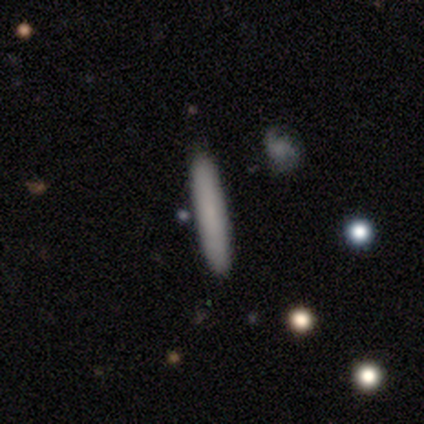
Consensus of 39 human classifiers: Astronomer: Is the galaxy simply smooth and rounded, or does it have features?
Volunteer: smooth — 72%.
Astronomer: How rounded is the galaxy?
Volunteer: cigar-shaped — 96%.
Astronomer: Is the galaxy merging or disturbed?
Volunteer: none — 92%.